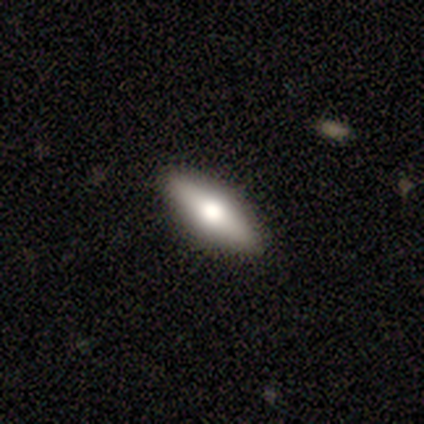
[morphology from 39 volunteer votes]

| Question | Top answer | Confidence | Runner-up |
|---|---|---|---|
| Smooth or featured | smooth | 54% | featured or disk (36%) |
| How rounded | in between | 48% | tied: cigar-shaped (48%) |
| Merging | none | 91% | minor disturbance (6%) |